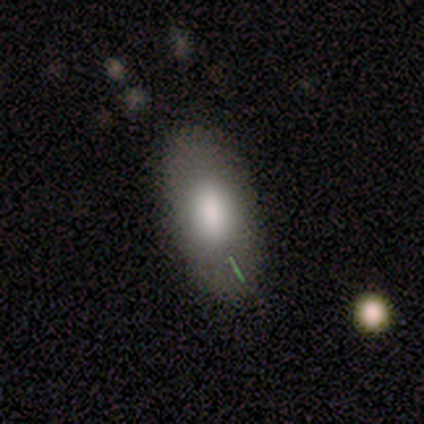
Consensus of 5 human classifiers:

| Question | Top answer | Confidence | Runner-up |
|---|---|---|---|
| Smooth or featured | smooth | 80% | featured or disk (20%) |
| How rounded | in between | 100% | — |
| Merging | none | 100% | — |